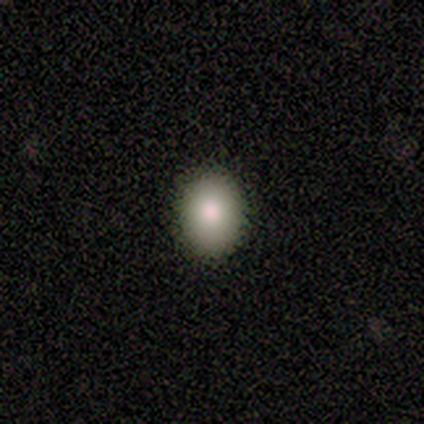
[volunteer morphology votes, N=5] A smooth galaxy with no disk features (80%) that is round (50%, tied with in between). Merging: none (100%).